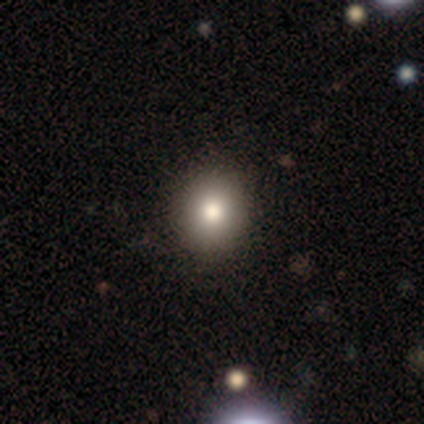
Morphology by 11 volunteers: smooth 91%, featured or disk 9%, star or artifact 0%. Down the decision tree: how rounded — round (90%); merging — none (82%).